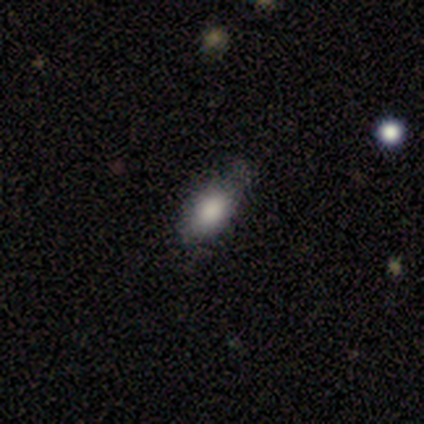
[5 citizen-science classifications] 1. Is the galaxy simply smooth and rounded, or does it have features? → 80% smooth, 20% featured or disk, 0% star or artifact.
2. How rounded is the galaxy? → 100% in between, 0% round, 0% cigar-shaped.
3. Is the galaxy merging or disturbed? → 60% none, 40% minor disturbance, 0% major disturbance, 0% merger.